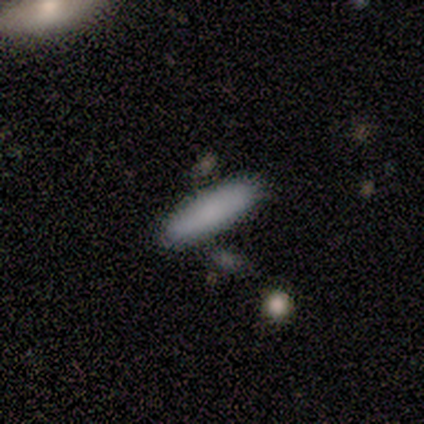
Volunteers were most divided on "smooth or featured": smooth: 88%, featured or disk: 12%, star or artifact: 0%. More confident: how rounded — cigar-shaped (100%); merging — none (100%).